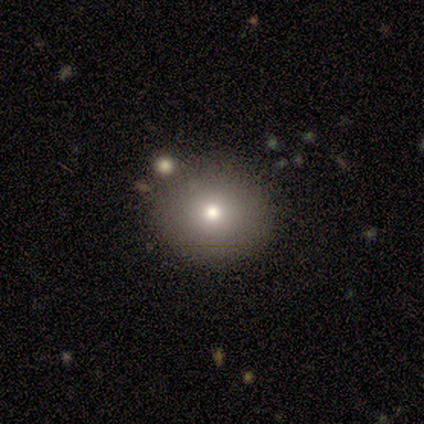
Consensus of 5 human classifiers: Morphology: type=smooth (80%); roundness=round (100%); merging=none (50%).